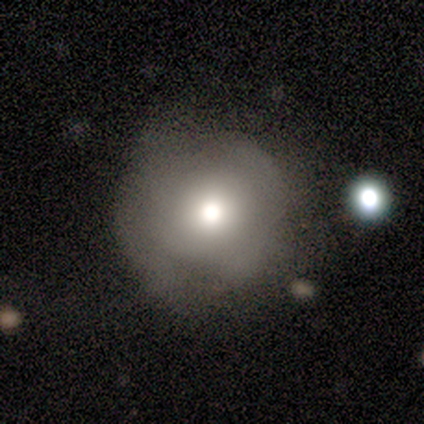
Smooth or featured?
  - smooth: 100% *
  - featured or disk: 0%
  - star or artifact: 0%
How rounded?
  - round: 100% *
  - in between: 0%
  - cigar-shaped: 0%
Merging?
  - none: 60% *
  - minor disturbance: 40%
  - major disturbance: 0%
  - merger: 0%